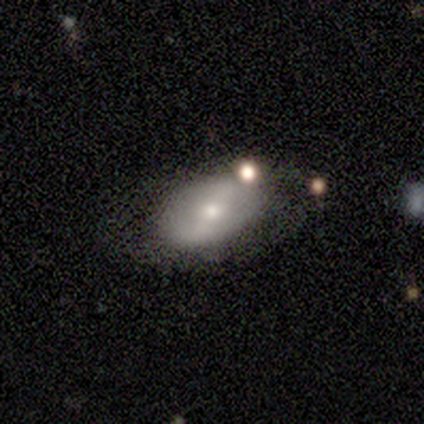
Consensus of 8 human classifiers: Smooth or featured: smooth — 75% (featured or disk — 25%)
How rounded: in between — 100%
Merging: none — 50% (merger — 25%)